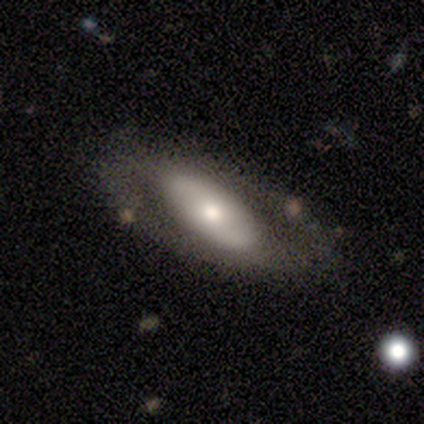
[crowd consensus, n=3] A featured or disk galaxy (67%) viewed edge-on (50%, tied with no) with a rounded central bulge (100%).

Vote fractions:
- Smooth or featured? featured or disk: 67% / smooth: 33% / star or artifact: 0%
- Edge-on disk? yes: 50% (tied) / no: 50% (tied)
- Edge-on bulge? rounded: 100% / boxy: 0% / none: 0%
- Merging? none: 67% / major disturbance: 33% / minor disturbance: 0% / merger: 0%